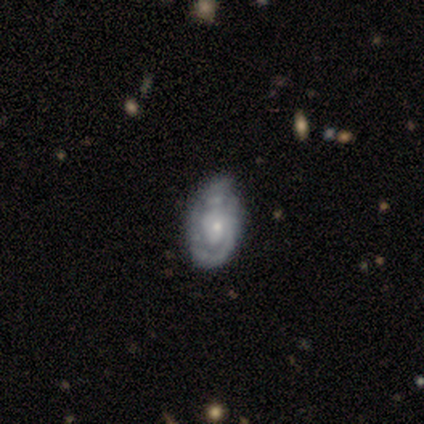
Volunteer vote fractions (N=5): smooth-or-featured: featured or disk: 100% | smooth: 0% | star or artifact: 0%
  disk-edge-on: no: 100% | yes: 0%
    bar: no: 100% | strong: 0% | weak: 0%
    has-spiral-arms: yes: 100% | no: 0%
      spiral-winding: tight: 100% | medium: 0% | loose: 0%
      spiral-arm-count: 1: 60% | 2: 20% | can't tell: 20% | 3: 0% | 4: 0% | more than 4: 0%
    bulge-size: small: 80% | moderate: 20% | dominant: 0% | large: 0% | none: 0%
  merging: none: 60% | minor disturbance: 40% | major disturbance: 0% | merger: 0%